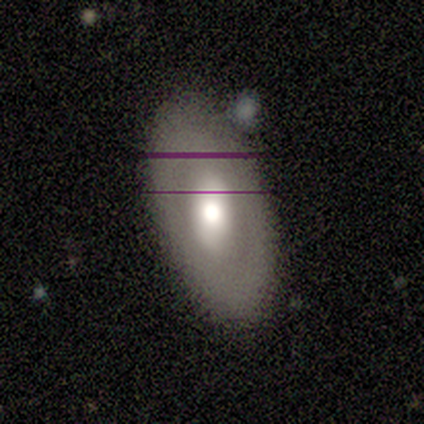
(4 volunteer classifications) Smooth or featured: smooth — 50% (tied with featured or disk — 50%)
How rounded: in between — 100%
Merging: none — 75% (minor disturbance — 25%)